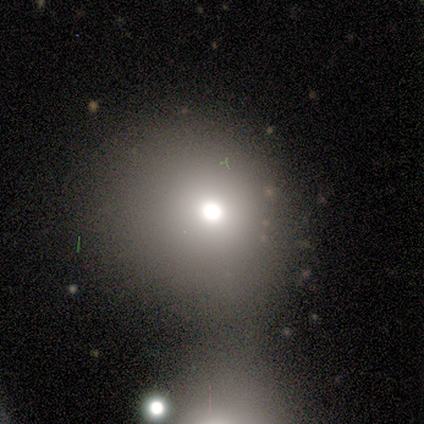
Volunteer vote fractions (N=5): Smooth or featured: smooth — 80% (star or artifact — 20%)
How rounded: round — 75% (in between — 25%)
Merging: minor disturbance — 75% (none — 25%)